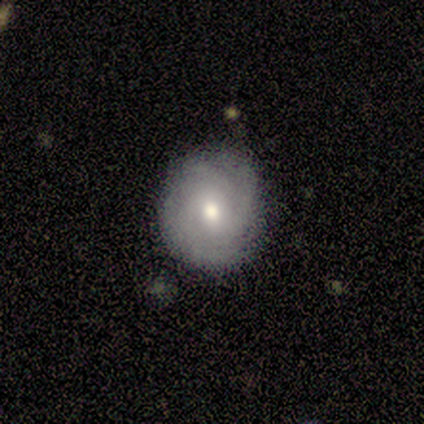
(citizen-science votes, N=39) Overall: featured or disk (64%; smooth 36%). Edge-on disk: no (96%). Bar: no (75%). Spiral arms: yes (83%). Spiral arm count: 3 (40%, tied with can't tell). Spiral winding: tight (90%). Bulge size: moderate (75%). Merging: none (85%).